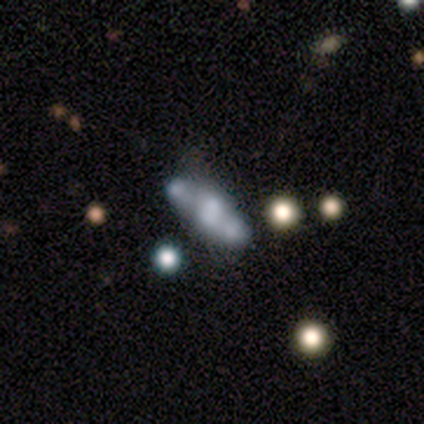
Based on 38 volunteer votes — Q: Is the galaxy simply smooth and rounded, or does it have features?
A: featured or disk — 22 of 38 (58%).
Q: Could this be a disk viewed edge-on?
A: no — 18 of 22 (82%).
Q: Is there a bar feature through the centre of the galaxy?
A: no — 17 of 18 (94%).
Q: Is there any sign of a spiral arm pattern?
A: no — 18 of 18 (100%).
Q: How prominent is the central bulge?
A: none — 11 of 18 (61%).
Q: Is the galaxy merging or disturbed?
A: merger — 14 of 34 (41%).